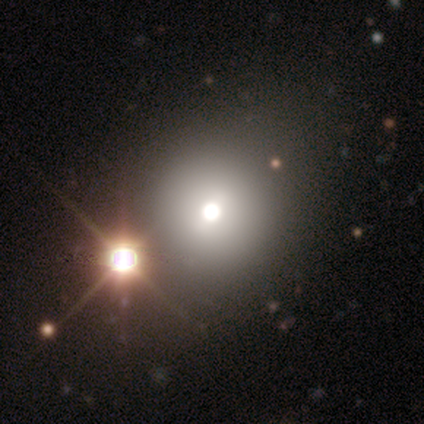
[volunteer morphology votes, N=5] Smooth or featured: smooth — 40% (tied with featured or disk — 40%)
How rounded: round — 100%
Merging: none — 50% (tied with minor disturbance — 50%)